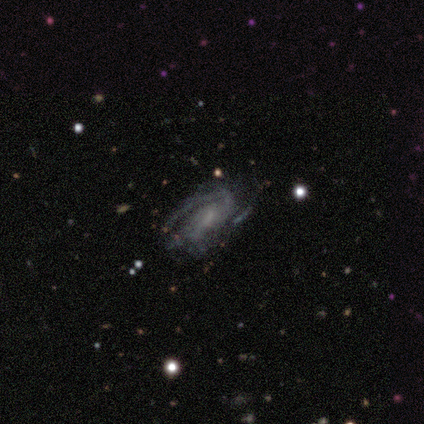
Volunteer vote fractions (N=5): A featured or disk galaxy (80%) with a weak bar (50%, tied with no), 1 (75%) medium (50%) spiral arms (100%) and a small central bulge (50%, tied with none).

Vote fractions:
- Smooth or featured? featured or disk: 80% / star or artifact: 20% / smooth: 0%
- Edge-on disk? no: 100% / yes: 0%
- Bar? weak: 50% (tied) / no: 50% (tied) / strong: 0%
- Spiral arms? yes: 100% / no: 0%
- Spiral winding? medium: 50% / tight: 25% / loose: 25%
- Spiral arm count? 1: 75% / 2: 25% / 3: 0% / 4: 0% / more than 4: 0% / can't tell: 0%
- Bulge size? small: 50% (tied) / none: 50% (tied) / dominant: 0% / large: 0% / moderate: 0%
- Merging? none: 75% / minor disturbance: 25% / major disturbance: 0% / merger: 0%